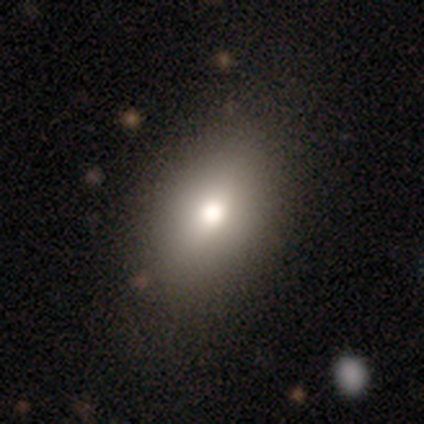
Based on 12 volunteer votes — Smooth or featured: smooth — 75% (featured or disk — 25%)
How rounded: in between — 100%
Merging: none — 83% (minor disturbance — 17%)